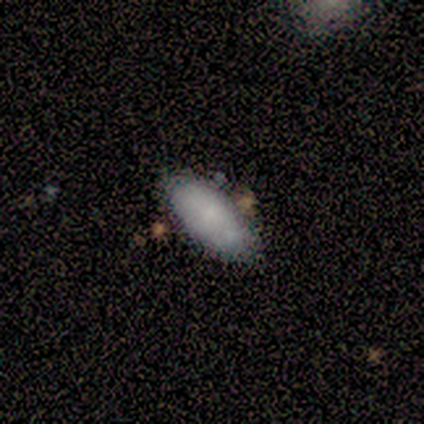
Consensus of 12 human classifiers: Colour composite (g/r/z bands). It shows a smooth galaxy with no disk features (75%) that is in between round and cigar-shaped (100%). Merging: none (50%).